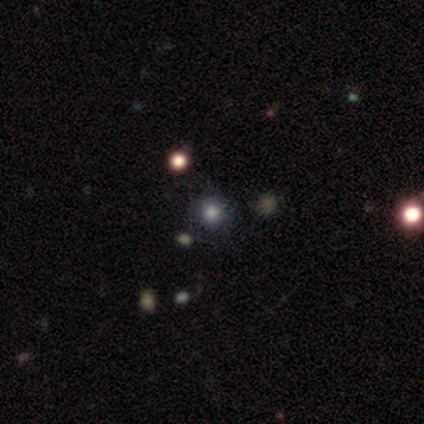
Q: Smooth or featured?
A: smooth (59%); runner-up: star or artifact (41%)
Q: How rounded?
A: round (87%); runner-up: in between (9%)
Q: Merging?
A: none (87%); runner-up: minor disturbance (13%)